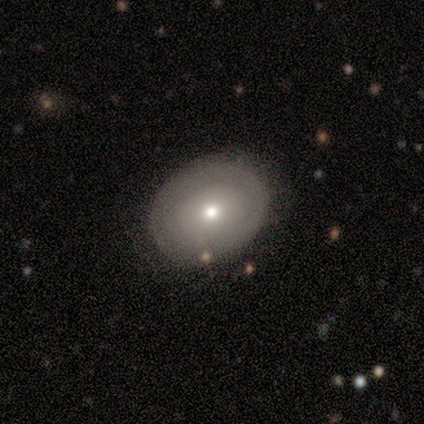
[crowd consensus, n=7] Morphology: type=smooth (57%); roundness=round (75%); merging=none (83%).